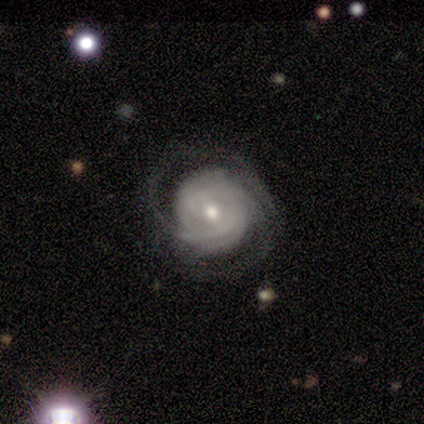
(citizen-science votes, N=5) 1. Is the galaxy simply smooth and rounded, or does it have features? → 100% featured or disk, 0% smooth, 0% star or artifact.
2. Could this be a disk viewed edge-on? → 100% no, 0% yes.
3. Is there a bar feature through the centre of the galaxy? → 80% weak, 20% no, 0% strong.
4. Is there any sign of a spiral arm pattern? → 100% yes, 0% no.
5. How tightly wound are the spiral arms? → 100% tight, 0% medium, 0% loose.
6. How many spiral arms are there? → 40% 2 (tied), 40% 3 (tied), 20% 4, 0% 1, 0% more than 4, 0% can't tell.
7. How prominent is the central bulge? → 100% small, 0% dominant, 0% large, 0% moderate, 0% none.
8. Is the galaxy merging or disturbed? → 80% none, 20% major disturbance, 0% minor disturbance, 0% merger.